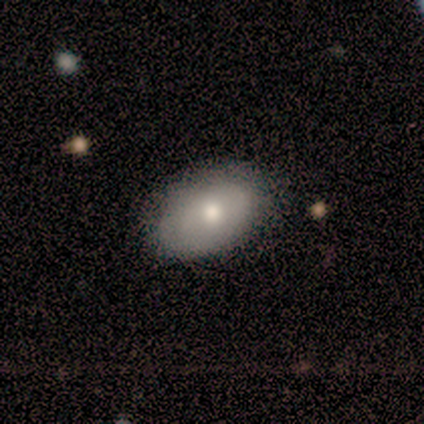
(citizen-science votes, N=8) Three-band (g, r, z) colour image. It shows a smooth galaxy with no disk features (75%) that is in between round and cigar-shaped (83%). Merging: none (86%).